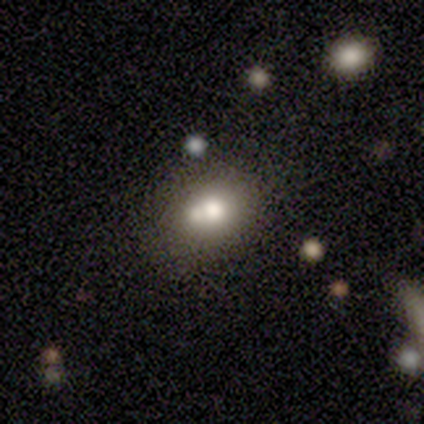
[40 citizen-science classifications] Smooth or featured? 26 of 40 (65%) said smooth. How rounded? 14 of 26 (54%) said in between. Merging? 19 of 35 (54%) said none.